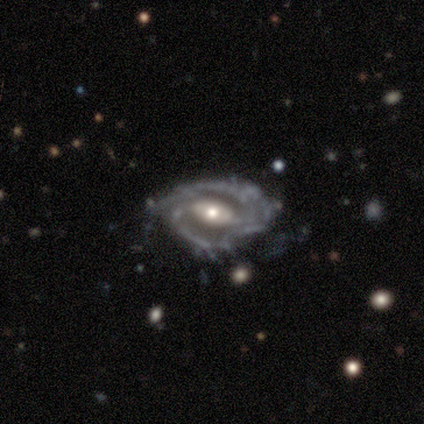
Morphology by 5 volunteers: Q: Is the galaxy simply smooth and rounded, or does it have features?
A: featured or disk — 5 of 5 (100%).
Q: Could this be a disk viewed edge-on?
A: no — 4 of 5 (80%).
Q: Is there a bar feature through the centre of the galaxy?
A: no — 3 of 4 (75%).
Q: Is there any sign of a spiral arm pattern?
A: yes — 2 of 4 (50%, tied with no).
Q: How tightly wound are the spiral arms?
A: tight — 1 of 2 (50%, tied with medium).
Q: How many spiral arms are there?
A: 2 — 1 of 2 (50%, tied with can't tell).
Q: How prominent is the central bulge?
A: moderate — 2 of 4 (50%, tied with small).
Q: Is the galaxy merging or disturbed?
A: none — 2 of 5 (40%, tied with minor disturbance).